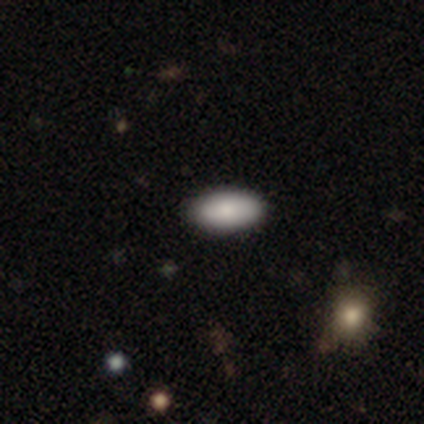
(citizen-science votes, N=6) Smooth or featured? 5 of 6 (83%) said smooth. How rounded? 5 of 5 (100%) said in between. Merging? 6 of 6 (100%) said none.